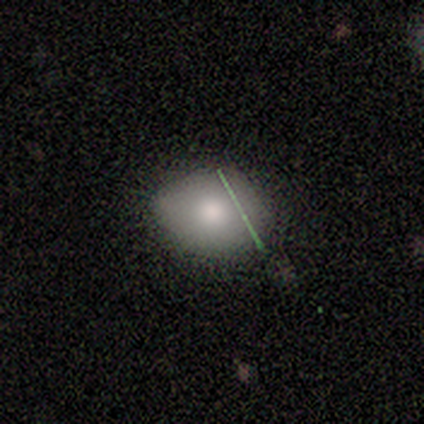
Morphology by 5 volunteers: A featured or disk galaxy (40%, tied with star or artifact) with no bar (100%), no spiral arms (100%) and a moderate central bulge (50%, tied with small).

Vote fractions:
- Smooth or featured? featured or disk: 40% (tied) / star or artifact: 40% (tied) / smooth: 20%
- Edge-on disk? no: 100% / yes: 0%
- Bar? no: 100% / strong: 0% / weak: 0%
- Spiral arms? no: 100% / yes: 0%
- Bulge size? moderate: 50% (tied) / small: 50% (tied) / dominant: 0% / large: 0% / none: 0%
- Merging? none: 67% / minor disturbance: 33% / major disturbance: 0% / merger: 0%